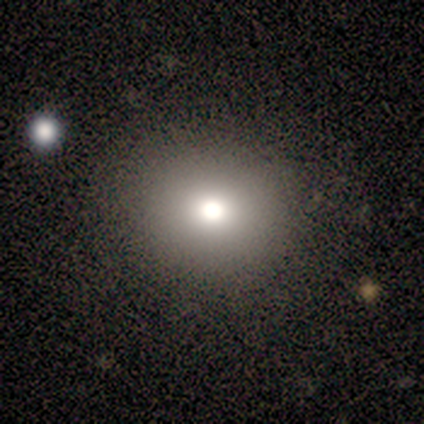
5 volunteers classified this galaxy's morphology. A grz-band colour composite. It shows a smooth galaxy with no disk features (100%) that is round (60%). Merging: none (80%).